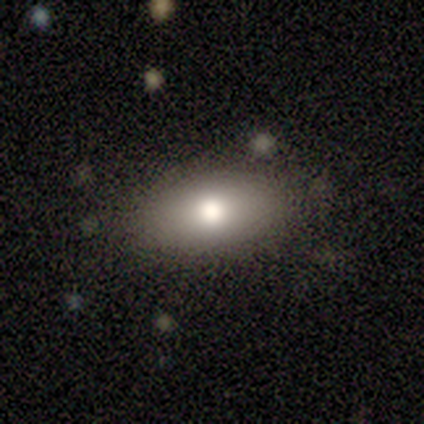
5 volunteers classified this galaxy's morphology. Q: Smooth or featured?
A: smooth (100%)
Q: How rounded?
A: in between (100%)
Q: Merging?
A: none (100%)